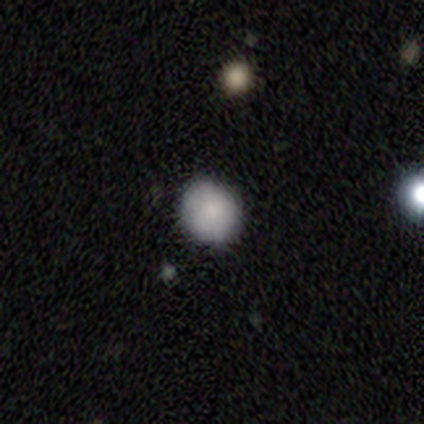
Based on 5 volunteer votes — This is clearly a smooth galaxy (80%). How rounded: clearly round (100%). Merging: clearly none (100%).